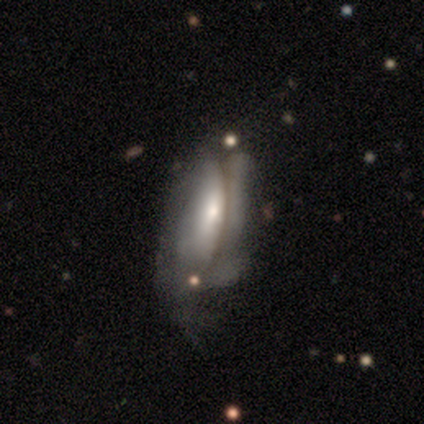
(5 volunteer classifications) Overall: featured or disk (80%). Edge-on disk: no (75%). Bar: no (67%; weak 33%). Spiral arms: no (67%; yes 33%). Bulge size: large (33%, tied with moderate and small). Merging: none (40%, tied with major disturbance).